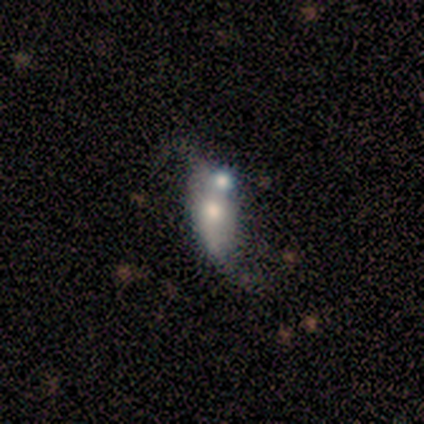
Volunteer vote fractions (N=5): This is likely a featured or disk galaxy (60%). It is clearly not viewed edge-on (100%). Bar: likely no (67%). Spiral arm pattern: likely yes (67%). Spiral arm count: clearly 2 (100%). Spiral winding: possibly medium (50%, tied with loose). Central bulge: likely moderate (67%). Merging: likely merger (75%).